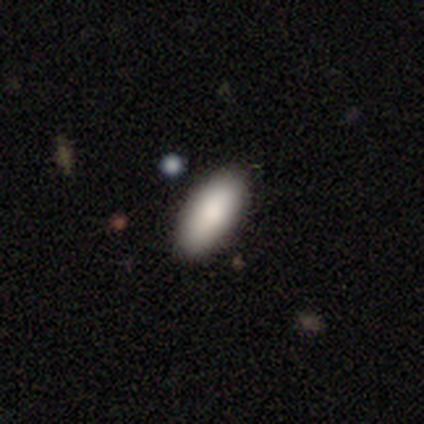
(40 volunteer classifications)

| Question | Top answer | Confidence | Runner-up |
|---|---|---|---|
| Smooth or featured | smooth | 85% | featured or disk (8%) |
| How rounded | in between | 91% | cigar-shaped (9%) |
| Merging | none | 59% | minor disturbance (5%) |